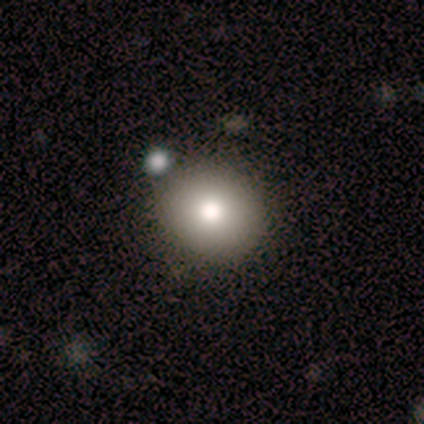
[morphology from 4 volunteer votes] smooth_or_featured: smooth (p=0.75) [alt: star or artifact p=0.25]
how_rounded: round (p=1.00)
merging: none (p=1.00)